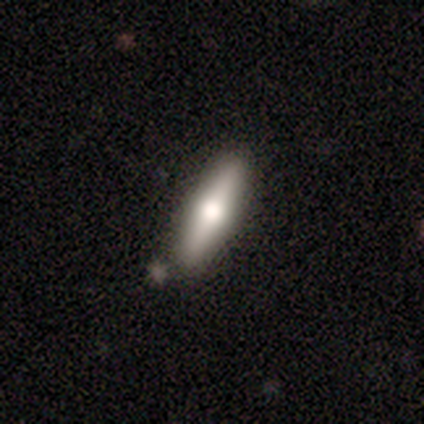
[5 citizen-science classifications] Smooth or featured? 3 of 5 (60%) said featured or disk. Edge-on disk? 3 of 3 (100%) said yes. Edge-on bulge? 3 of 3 (100%) said rounded. Merging? 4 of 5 (80%) said none.